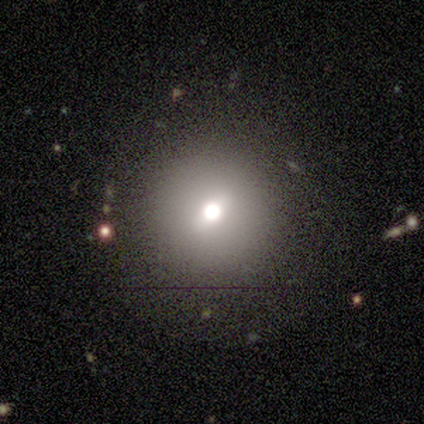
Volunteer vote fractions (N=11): Smooth or featured? 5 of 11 (45%) said star or artifact.